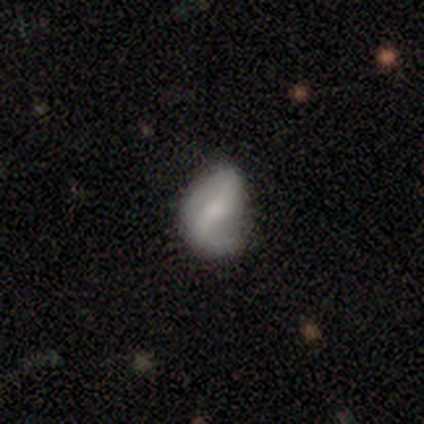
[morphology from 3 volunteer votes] A featured or disk galaxy (100%) with no bar (67%), no spiral arms (100%) and a small central bulge (67%).

Vote fractions:
- Smooth or featured? featured or disk: 100% / smooth: 0% / star or artifact: 0%
- Edge-on disk? no: 100% / yes: 0%
- Bar? no: 67% / strong: 33% / weak: 0%
- Spiral arms? no: 100% / yes: 0%
- Bulge size? small: 67% / none: 33% / dominant: 0% / large: 0% / moderate: 0%
- Merging? none: 67% / minor disturbance: 33% / major disturbance: 0% / merger: 0%